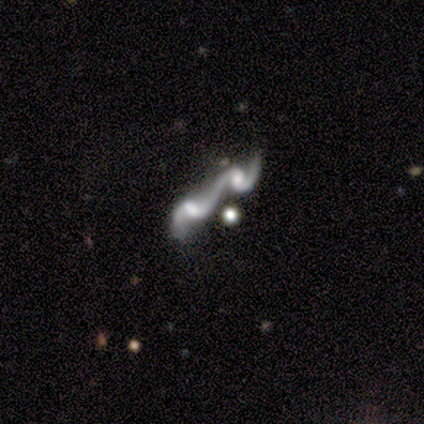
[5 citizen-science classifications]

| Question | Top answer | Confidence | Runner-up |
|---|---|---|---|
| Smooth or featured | featured or disk | 80% | smooth (20%) |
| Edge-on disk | no | 100% | — |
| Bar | no | 75% | weak (25%) |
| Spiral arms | yes | 100% | — |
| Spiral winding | medium | 50% | tied: loose (50%) |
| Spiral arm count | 2 | 75% | can't tell (25%) |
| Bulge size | none | 50% | moderate (25%) |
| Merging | merger | 40% | none (20%) |